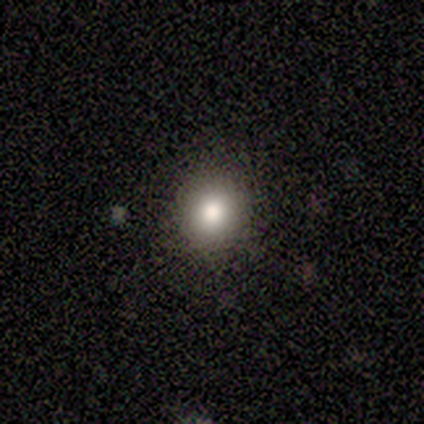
smooth 80%, star or artifact 20%, featured or disk 0%. Down the decision tree: how rounded — round (50%, tied with in between); merging — none (100%).